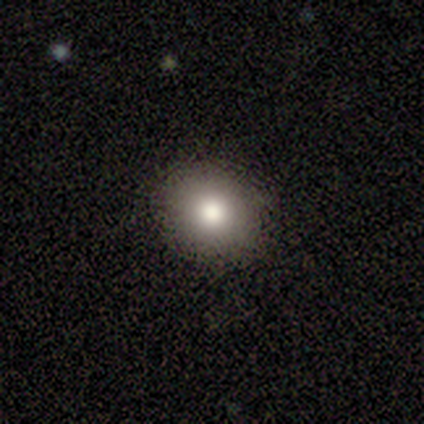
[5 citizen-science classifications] Q: Smooth or featured?
A: smooth (80%); runner-up: featured or disk (20%)
Q: How rounded?
A: round (100%)
Q: Merging?
A: none (80%); runner-up: major disturbance (20%)